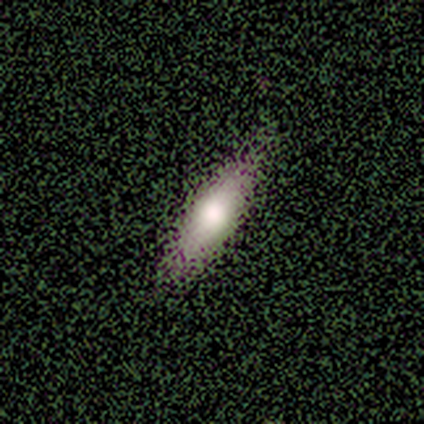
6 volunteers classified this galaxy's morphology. Smooth or featured?
  - smooth: 67% *
  - featured or disk: 17%
  - star or artifact: 17%
How rounded?
  - cigar-shaped: 75% *
  - in between: 25%
  - round: 0%
Merging?
  - none: 100% *
  - minor disturbance: 0%
  - major disturbance: 0%
  - merger: 0%